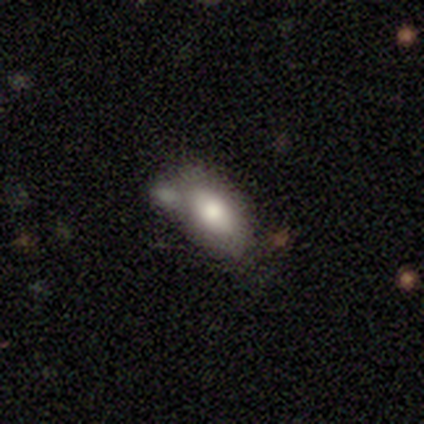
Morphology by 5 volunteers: Smooth or featured: smooth — 80% (featured or disk — 20%)
How rounded: in between — 100%
Merging: none — 60% (merger — 40%)